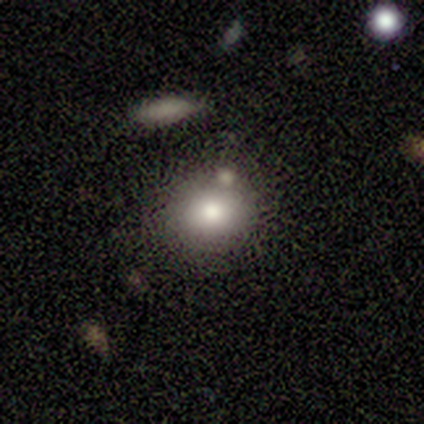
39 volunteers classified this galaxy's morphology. Smooth or featured: smooth — 69% (featured or disk — 23%)
How rounded: round — 67% (in between — 33%)
Merging: none — 75% (merger — 11%)